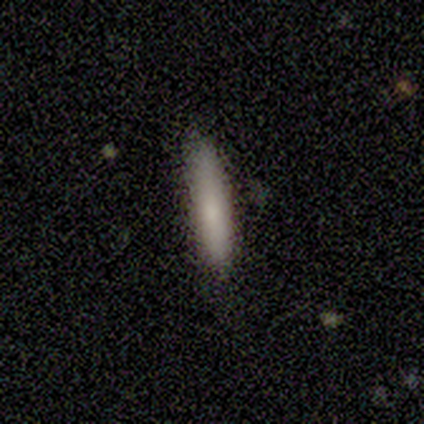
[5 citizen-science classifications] smooth_or_featured: smooth (p=0.80) [alt: featured or disk p=0.20]
how_rounded: cigar-shaped (p=1.00)
merging: none (p=1.00)